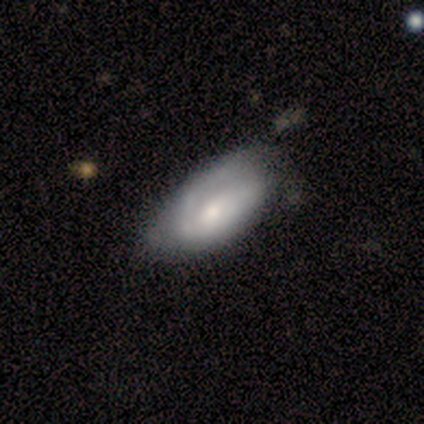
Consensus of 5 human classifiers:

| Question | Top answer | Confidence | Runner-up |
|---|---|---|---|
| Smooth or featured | featured or disk | 60% | smooth (40%) |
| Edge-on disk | no | 100% | — |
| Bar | no | 67% | strong (33%) |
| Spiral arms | yes | 67% | no (33%) |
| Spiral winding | tight | 100% | — |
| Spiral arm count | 1 | 50% | tied: can't tell (50%) |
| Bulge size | dominant | 33% | tied: moderate (33%), small (33%) |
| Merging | minor disturbance | 60% | none (20%) |